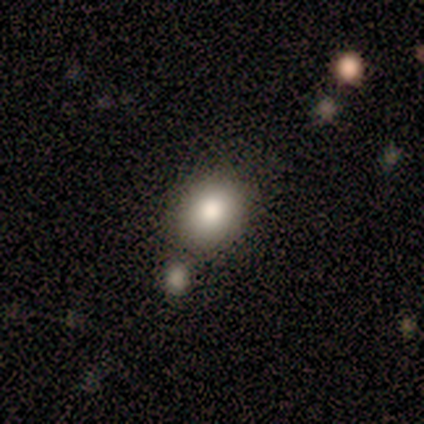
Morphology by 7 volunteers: Smooth or featured? 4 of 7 (57%) said smooth. How rounded? 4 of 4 (100%) said round. Merging? 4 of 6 (67%) said none.